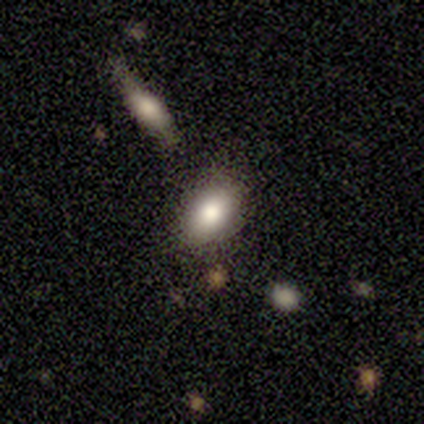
smooth 100%, featured or disk 0%, star or artifact 0%. Down the decision tree: how rounded — in between (100%); merging — none (100%).